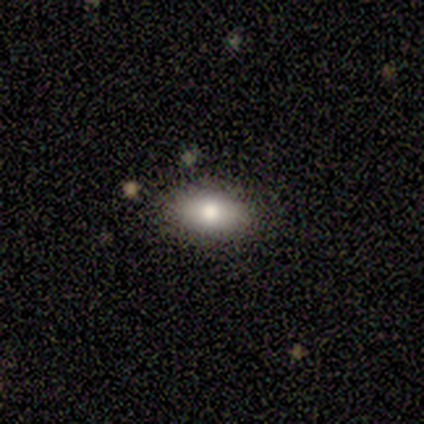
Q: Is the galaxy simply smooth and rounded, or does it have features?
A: smooth — 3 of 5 (60%).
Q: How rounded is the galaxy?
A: in between — 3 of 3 (100%).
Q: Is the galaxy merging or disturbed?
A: none — 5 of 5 (100%).